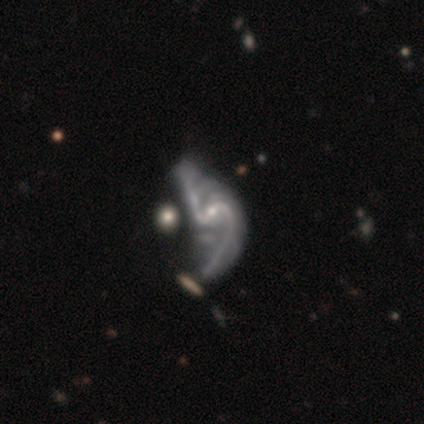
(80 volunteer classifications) Morphology: type=featured or disk (94%); edge-on=no (96%); bar=weak (57%); spiral arms=yes (94%); winding=loose (79%); arm count=2 (88%); bulge=small (72%); merging=major disturbance (22%).